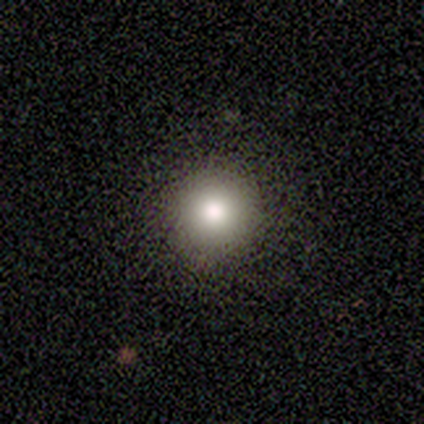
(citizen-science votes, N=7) Smooth or featured?
  - smooth: 86% *
  - star or artifact: 14%
  - featured or disk: 0%
How rounded?
  - round: 100% *
  - in between: 0%
  - cigar-shaped: 0%
Merging?
  - none: 83% *
  - major disturbance: 17%
  - minor disturbance: 0%
  - merger: 0%